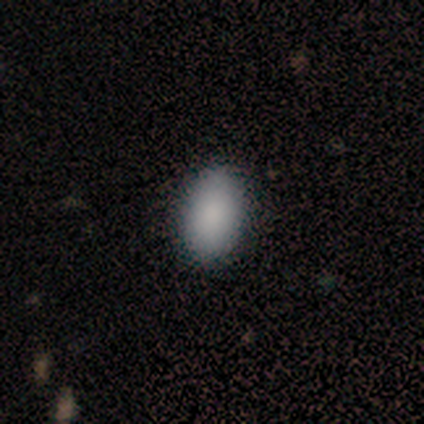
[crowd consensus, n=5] Smooth or featured?
  - smooth: 100% *
  - featured or disk: 0%
  - star or artifact: 0%
How rounded?
  - in between: 100% *
  - round: 0%
  - cigar-shaped: 0%
Merging?
  - none: 80% *
  - minor disturbance: 20%
  - major disturbance: 0%
  - merger: 0%